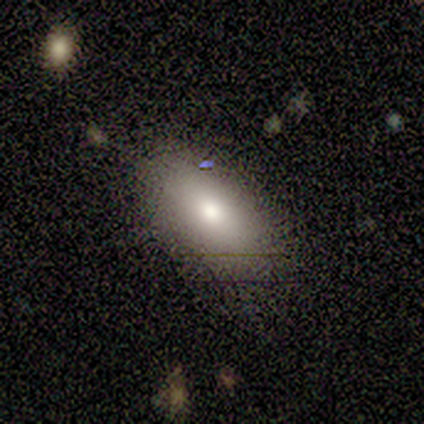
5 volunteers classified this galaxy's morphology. Volunteers were most divided on "smooth or featured": smooth: 60%, featured or disk: 20%, star or artifact: 20%. More confident: how rounded — in between (100%); merging — none (100%).